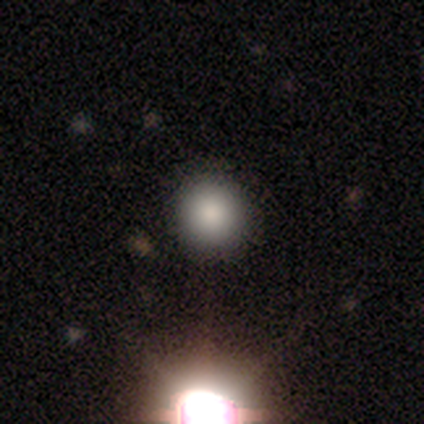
Smooth or featured? 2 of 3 (67%) said smooth. How rounded? 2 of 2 (100%) said round. Merging? 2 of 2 (100%) said none.